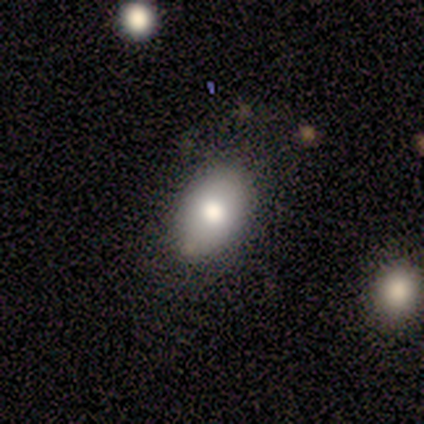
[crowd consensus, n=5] smooth 60%, featured or disk 40%, star or artifact 0%. Down the decision tree: how rounded — in between (100%); merging — none (100%).